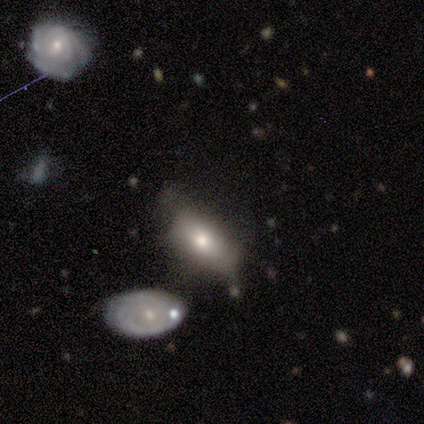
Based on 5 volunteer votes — Q: Smooth or featured?
A: smooth (80%); runner-up: star or artifact (20%)
Q: How rounded?
A: in between (75%); runner-up: cigar-shaped (25%)
Q: Merging?
A: minor disturbance (50%); runner-up: none (25%)